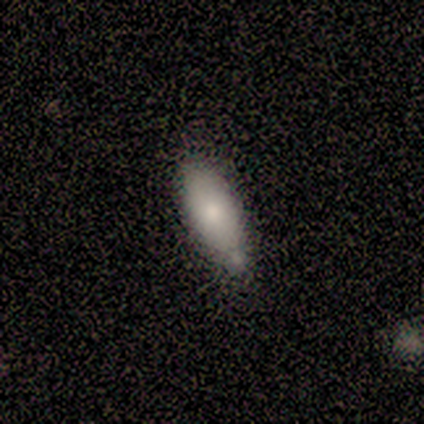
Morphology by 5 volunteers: type=smooth (80%); roundness=in between (75%); merging=minor disturbance (60%).